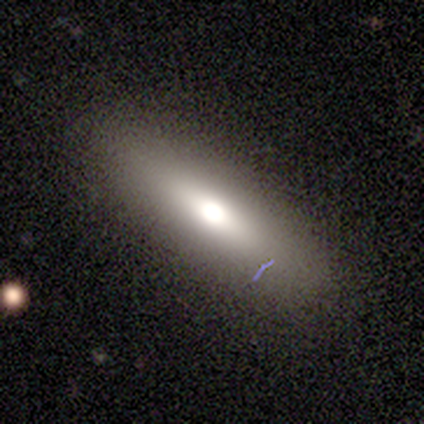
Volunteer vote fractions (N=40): Smooth or featured?
  - smooth: 68% *
  - featured or disk: 30%
  - star or artifact: 2%
How rounded?
  - cigar-shaped: 56% *
  - in between: 44%
  - round: 0%
Merging?
  - none: 79% *
  - minor disturbance: 10%
  - major disturbance: 10%
  - merger: 0%